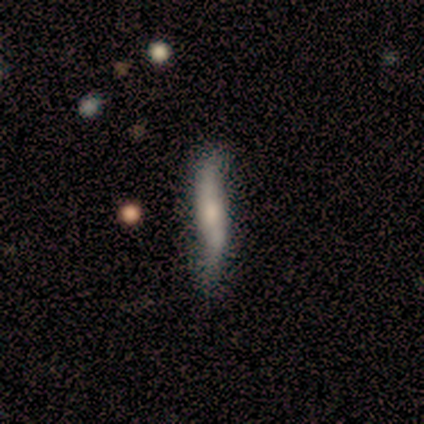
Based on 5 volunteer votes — This appears to be a featured or disk galaxy (60%) viewed edge-on (67%) with no central bulge (50%, tied with rounded). Merging: none (80%).